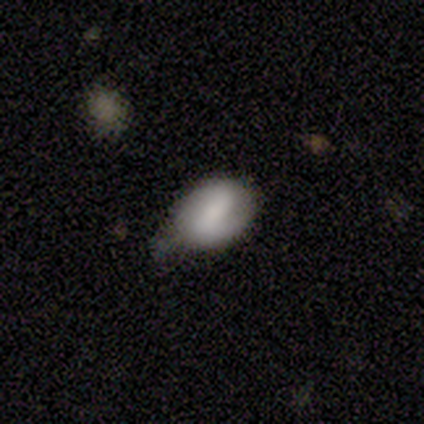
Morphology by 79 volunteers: smooth 57%, featured or disk 34%, star or artifact 9%. Down the decision tree: how rounded — in between (82%); merging — none (31%).